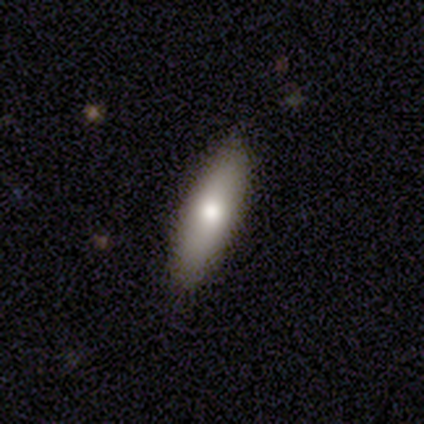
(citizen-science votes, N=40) Smooth or featured: smooth — 82% (featured or disk — 10%)
How rounded: cigar-shaped — 64% (in between — 36%)
Merging: none — 89% (minor disturbance — 8%)